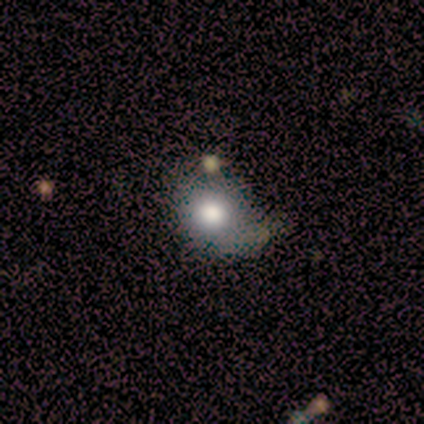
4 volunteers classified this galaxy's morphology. Smooth or featured: smooth — 100%
How rounded: round — 100%
Merging: none — 100%